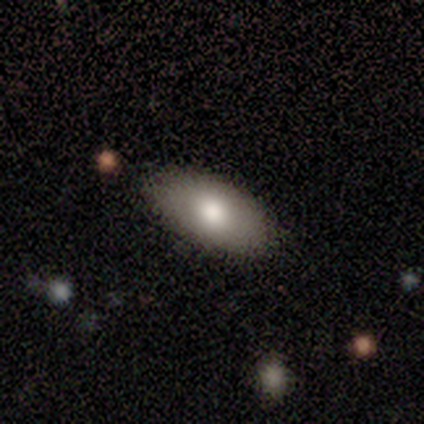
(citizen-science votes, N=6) Smooth or featured? smooth (50%)
How rounded? in between (100%)
Merging? none (100%)